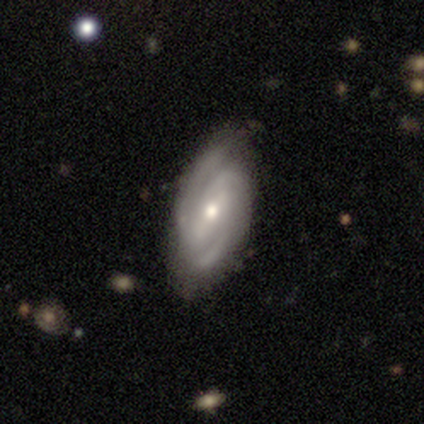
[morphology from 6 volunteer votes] This appears to be a featured or disk galaxy (100%) with a strong bar (50%), 2 (83%) medium (67%) spiral arms (100%) and a moderate central bulge (50%). Merging: none (83%).